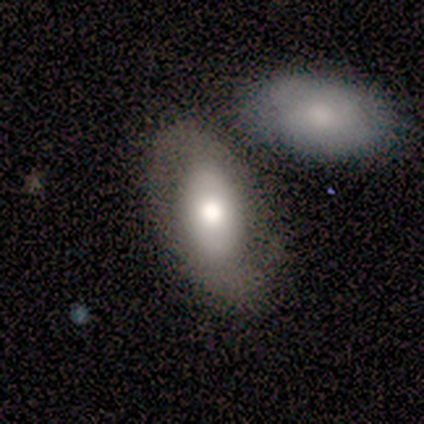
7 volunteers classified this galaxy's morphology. Volunteers were most divided on "smooth or featured" (2-way tie): smooth: 43%, featured or disk: 43%, star or artifact: 14%; "merging" (3-way tie): none: 33%, minor disturbance: 33%, merger: 33%, major disturbance: 0%. More confident: how rounded — in between (100%).